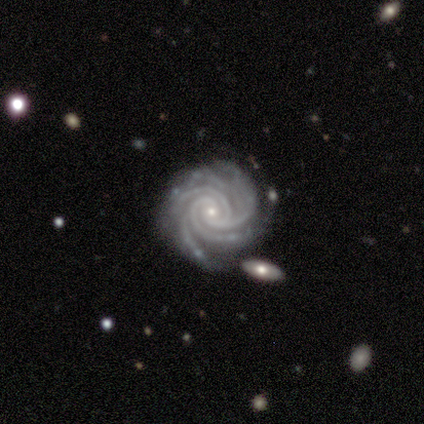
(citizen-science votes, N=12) Morphology: type=featured or disk (92%); edge-on=no (100%); bar=no (82%); spiral arms=yes (100%); winding=tight (91%); arm count=4 (45%); bulge=small (82%); merging=none (58%).